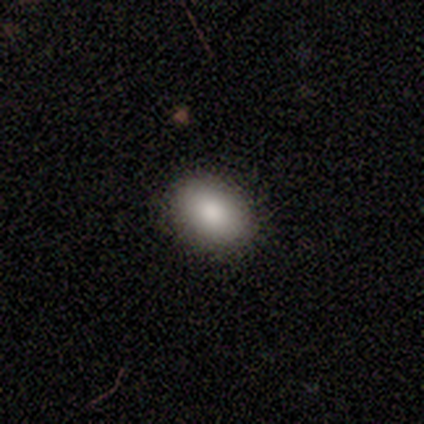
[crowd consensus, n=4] Smooth or featured? 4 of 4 (100%) said smooth. How rounded? 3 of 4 (75%) said in between. Merging? 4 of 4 (100%) said none.